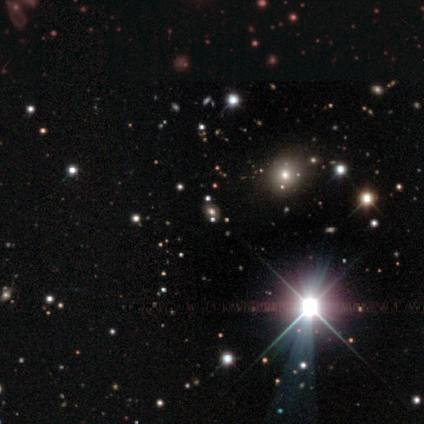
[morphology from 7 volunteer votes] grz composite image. It shows a star or artifact, not a galaxy (86%).